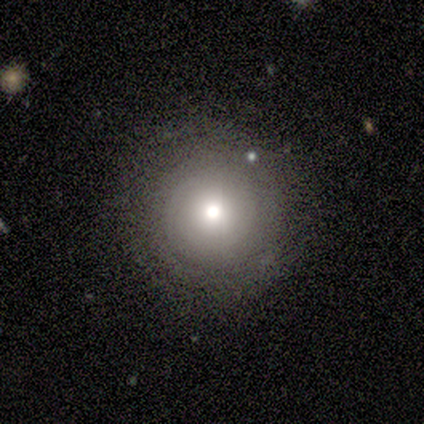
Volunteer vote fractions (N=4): Morphology: type=smooth (50%); roundness=round (100%); merging=minor disturbance (67%).